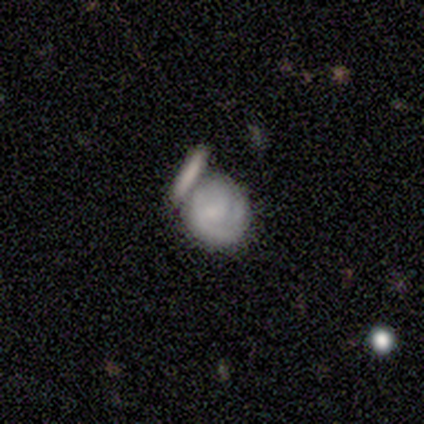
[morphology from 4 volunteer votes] smooth 75%, featured or disk 25%, star or artifact 0%. Down the decision tree: how rounded — in between (67%); merging — minor disturbance (50%).